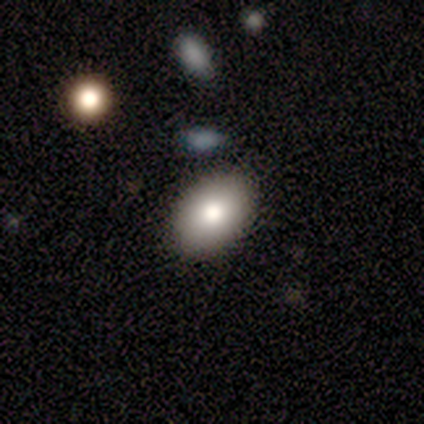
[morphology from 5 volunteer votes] Smooth or featured? 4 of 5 (80%) said smooth. How rounded? 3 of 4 (75%) said in between. Merging? 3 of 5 (60%) said none.